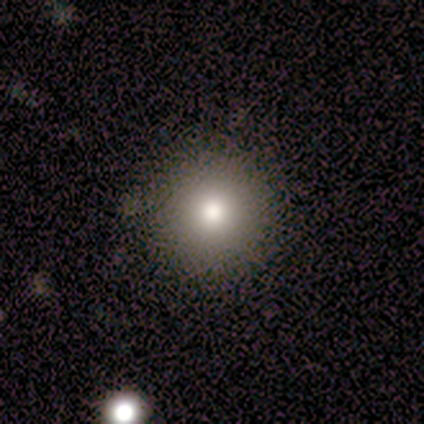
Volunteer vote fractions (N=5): Smooth or featured? smooth (80%)
How rounded? round (100%)
Merging? none (100%)